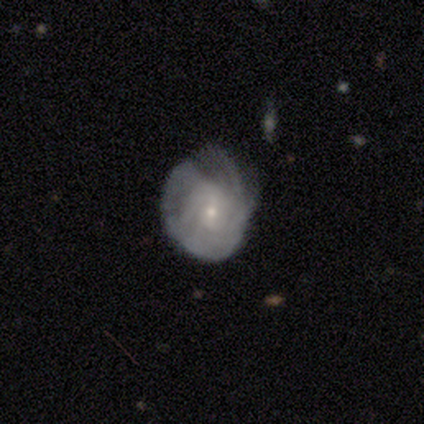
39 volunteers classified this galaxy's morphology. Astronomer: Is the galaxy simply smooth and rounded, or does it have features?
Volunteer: featured or disk — 56% (runner-up: smooth, 41%).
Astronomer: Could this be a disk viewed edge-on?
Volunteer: no — 86%.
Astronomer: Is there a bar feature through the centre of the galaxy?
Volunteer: no — 68%.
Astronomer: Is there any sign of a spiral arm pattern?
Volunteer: yes — 84%.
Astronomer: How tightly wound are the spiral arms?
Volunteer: tight — 56%.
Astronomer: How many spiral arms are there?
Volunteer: can't tell — 75%.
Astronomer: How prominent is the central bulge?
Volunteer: small — 89%.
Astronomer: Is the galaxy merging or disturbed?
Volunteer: none — 45% (runner-up: minor disturbance, 39%).